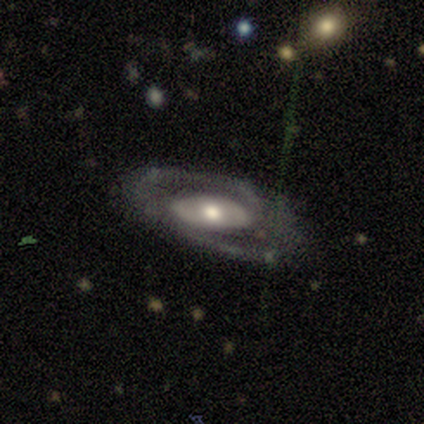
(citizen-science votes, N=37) A featured or disk galaxy (84%) with no bar (69%), 2 (81%) medium (38%) spiral arms (72%) and a moderate central bulge (62%).

Vote fractions:
- Smooth or featured? featured or disk: 84% / smooth: 8% / star or artifact: 8%
- Edge-on disk? no: 94% / yes: 6%
- Bar? no: 69% / weak: 21% / strong: 10%
- Spiral arms? yes: 72% / no: 28%
- Spiral winding? medium: 38% / tight: 33% / loose: 29%
- Spiral arm count? 2: 81% / can't tell: 14% / 3: 5% / 1: 0% / 4: 0% / more than 4: 0%
- Bulge size? moderate: 62% / large: 24% / small: 10% / dominant: 3% / none: 0%
- Merging? none: 74% / minor disturbance: 15% / major disturbance: 12% / merger: 0%